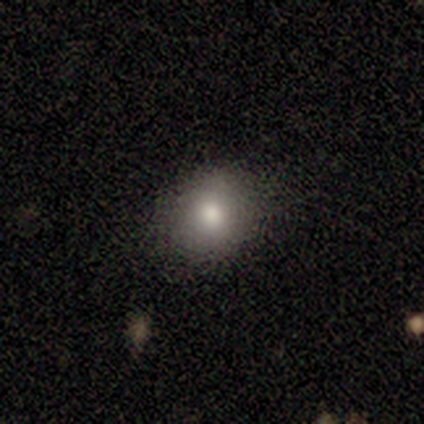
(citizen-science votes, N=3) Overall: smooth (100%). How rounded: round (67%; in between 33%). Merging: none (67%; minor disturbance 33%).